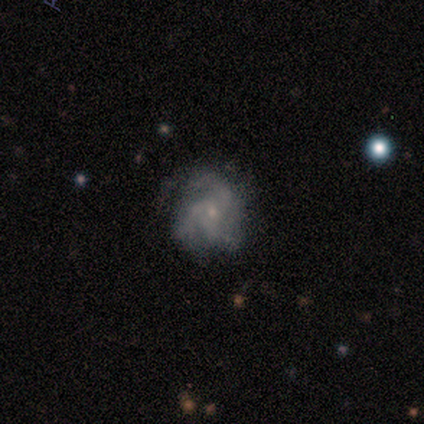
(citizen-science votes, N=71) Smooth or featured? 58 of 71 (82%) said featured or disk. Edge-on disk? 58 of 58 (100%) said no. Bar? 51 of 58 (88%) said no. Spiral arms? 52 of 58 (90%) said yes. Spiral winding? 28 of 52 (54%) said medium. Spiral arm count? 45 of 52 (87%) said 3. Bulge size? 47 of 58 (81%) said small. Merging? 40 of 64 (62%) said none.